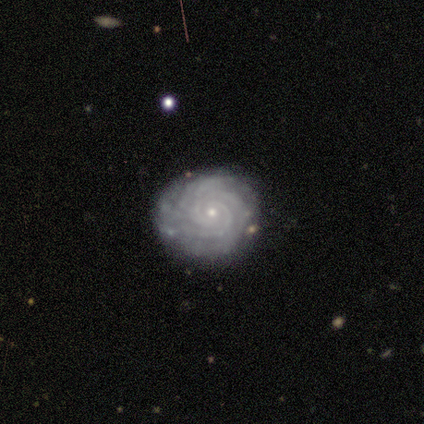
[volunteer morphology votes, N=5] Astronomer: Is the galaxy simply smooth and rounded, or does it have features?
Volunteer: featured or disk — 100%.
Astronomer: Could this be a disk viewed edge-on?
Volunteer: no — 100%.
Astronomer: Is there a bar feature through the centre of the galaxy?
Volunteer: no — 80%.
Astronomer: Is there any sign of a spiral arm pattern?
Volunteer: yes — 100%.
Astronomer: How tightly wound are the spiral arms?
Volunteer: tight — 100%.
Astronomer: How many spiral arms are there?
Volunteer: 3 — 60%.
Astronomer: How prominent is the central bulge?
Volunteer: small — 100%.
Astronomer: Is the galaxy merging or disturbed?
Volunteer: none — 100%.